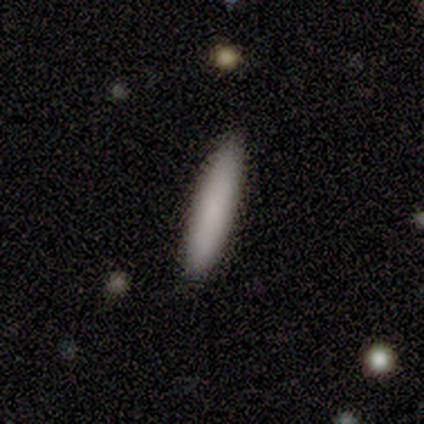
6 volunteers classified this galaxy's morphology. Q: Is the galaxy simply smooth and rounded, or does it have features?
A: smooth — 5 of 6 (83%).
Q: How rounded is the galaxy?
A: cigar-shaped — 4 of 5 (80%).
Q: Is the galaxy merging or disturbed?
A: none — 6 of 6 (100%).